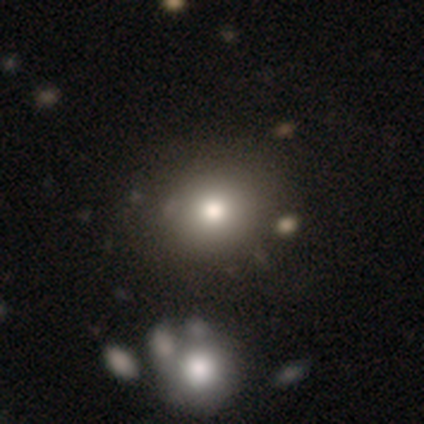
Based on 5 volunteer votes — smooth_or_featured: smooth (p=0.60) [alt: featured or disk p=0.20]
how_rounded: round (p=0.67) [alt: in between p=0.33]
merging: none (p=0.50) [tied with: minor disturbance p=0.50]